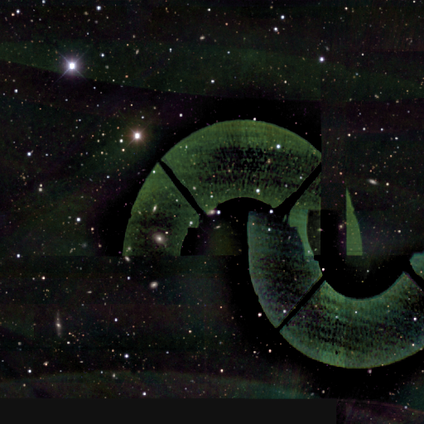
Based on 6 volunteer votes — smooth-or-featured: star or artifact: 100% | smooth: 0% | featured or disk: 0%